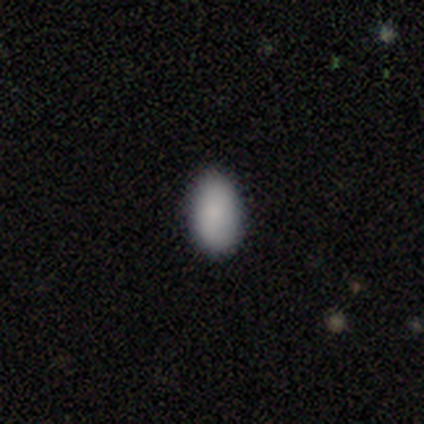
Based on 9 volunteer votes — Smooth or featured?
  - smooth: 78% *
  - featured or disk: 11%
  - star or artifact: 11%
How rounded?
  - in between: 86% *
  - round: 14%
  - cigar-shaped: 0%
Merging?
  - none: 100% *
  - minor disturbance: 0%
  - major disturbance: 0%
  - merger: 0%